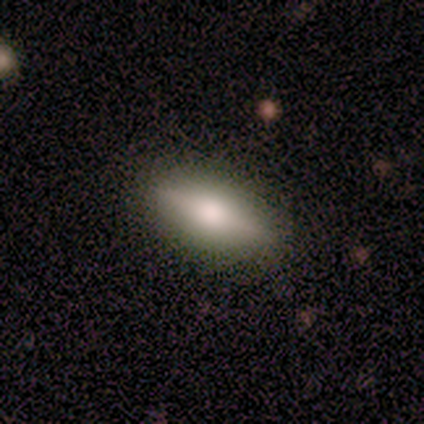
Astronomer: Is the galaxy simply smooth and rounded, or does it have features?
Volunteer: smooth — 60% (runner-up: featured or disk, 40%).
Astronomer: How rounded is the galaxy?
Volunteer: in between — 67%.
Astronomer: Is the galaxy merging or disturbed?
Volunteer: none — 100%.